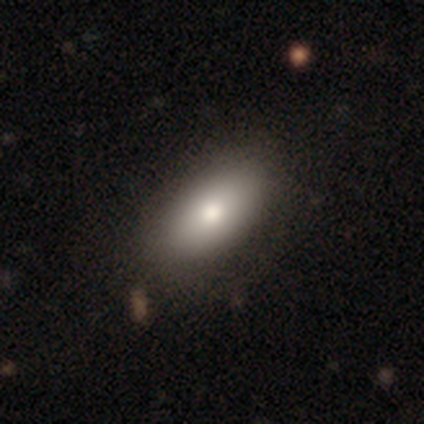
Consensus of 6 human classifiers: This appears to be a smooth galaxy with no disk features (83%) that is in between round and cigar-shaped (80%). Merging: none (100%).